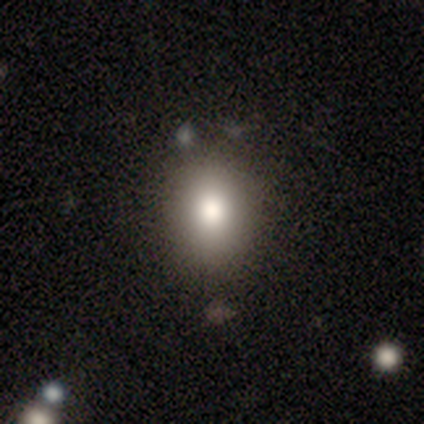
smooth-or-featured: smooth: 100% | featured or disk: 0% | star or artifact: 0%
  how-rounded: in between: 80% | round: 20% | cigar-shaped: 0%
  merging: none: 100% | minor disturbance: 0% | major disturbance: 0% | merger: 0%